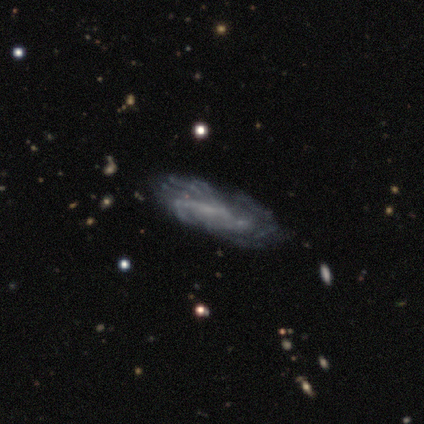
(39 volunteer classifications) Smooth or featured? 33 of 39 (85%) said featured or disk. Edge-on disk? 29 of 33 (88%) said no. Bar? 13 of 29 (45%) said weak. Spiral arms? 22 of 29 (76%) said yes. Spiral winding? 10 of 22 (45%) said tight. Spiral arm count? 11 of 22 (50%) said can't tell. Bulge size? 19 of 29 (66%) said none. Merging? 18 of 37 (49%) said none.